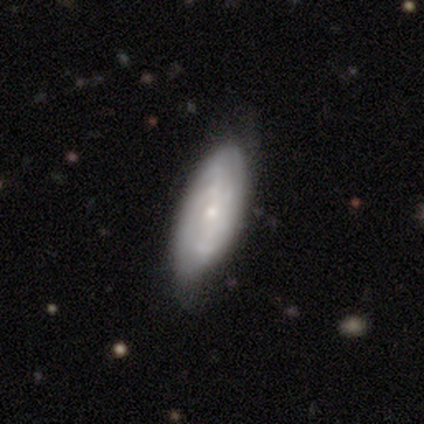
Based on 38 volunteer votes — Overall: featured or disk (68%; smooth 29%). Edge-on disk: no (96%). Bar: no (64%; weak 28%). Spiral arms: yes (68%; no 32%). Spiral arm count: can't tell (65%). Spiral winding: tight (71%). Bulge size: small (72%). Merging: none (81%).